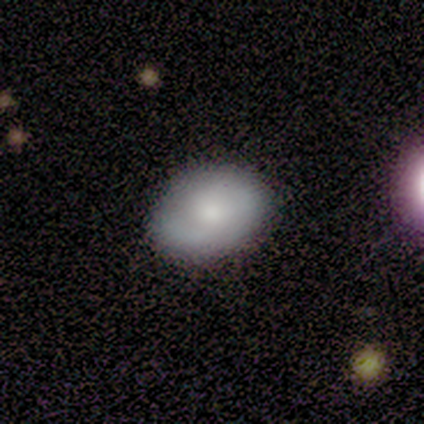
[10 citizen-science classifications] A smooth galaxy with no disk features (50%, tied with featured or disk) that is in between round and cigar-shaped (80%).

Vote fractions:
- Smooth or featured? smooth: 50% (tied) / featured or disk: 50% (tied) / star or artifact: 0%
- How rounded? in between: 80% / round: 20% / cigar-shaped: 0%
- Merging? none: 90% / minor disturbance: 10% / major disturbance: 0% / merger: 0%